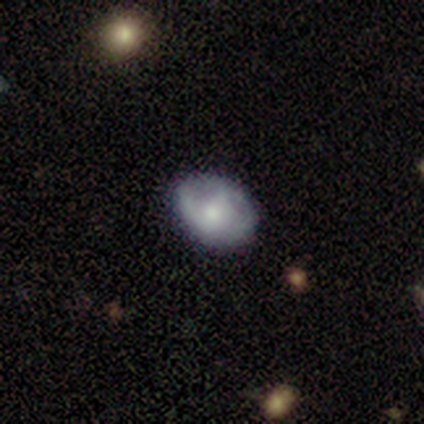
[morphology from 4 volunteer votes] A featured or disk galaxy (75%) with no bar (67%), 2 (50%, tied with can't tell) tight (50%, tied with medium) spiral arms (67%) and a small central bulge (100%).

Vote fractions:
- Smooth or featured? featured or disk: 75% / smooth: 25% / star or artifact: 0%
- Edge-on disk? no: 100% / yes: 0%
- Bar? no: 67% / strong: 33% / weak: 0%
- Spiral arms? yes: 67% / no: 33%
- Spiral winding? tight: 50% (tied) / medium: 50% (tied) / loose: 0%
- Spiral arm count? 2: 50% (tied) / can't tell: 50% (tied) / 1: 0% / 3: 0% / 4: 0% / more than 4: 0%
- Bulge size? small: 100% / dominant: 0% / large: 0% / moderate: 0% / none: 0%
- Merging? major disturbance: 50% / none: 25% / minor disturbance: 25% / merger: 0%